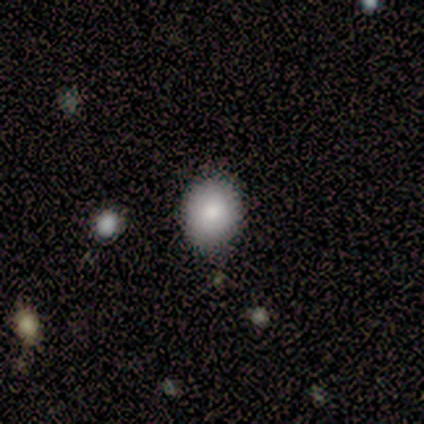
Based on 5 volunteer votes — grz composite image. It shows a smooth galaxy with no disk features (100%) that is round (100%). Merging: none (80%).